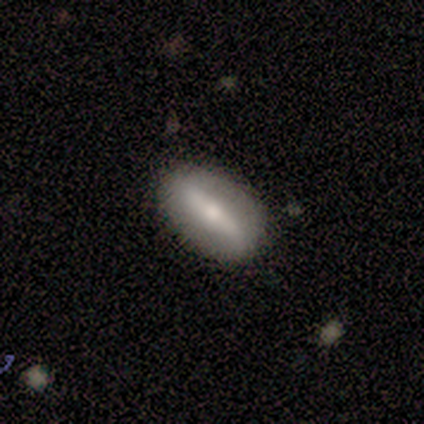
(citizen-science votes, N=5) smooth-or-featured: featured or disk: 60% | smooth: 20% | star or artifact: 20%
  disk-edge-on: no: 100% | yes: 0%
    bar: strong: 100% | weak: 0% | no: 0%
    has-spiral-arms: no: 100% | yes: 0%
    bulge-size: moderate: 100% | dominant: 0% | large: 0% | small: 0% | none: 0%
  merging: none: 100% | minor disturbance: 0% | major disturbance: 0% | merger: 0%